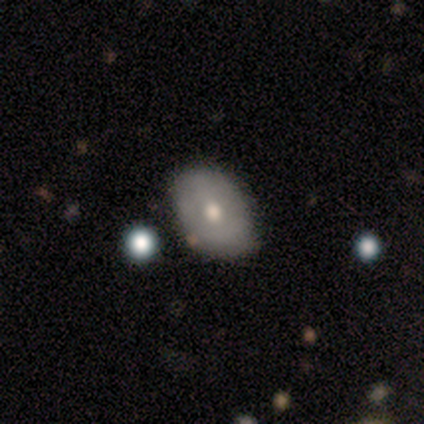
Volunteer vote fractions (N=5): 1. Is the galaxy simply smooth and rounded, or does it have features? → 80% featured or disk, 20% smooth, 0% star or artifact.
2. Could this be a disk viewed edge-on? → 100% no, 0% yes.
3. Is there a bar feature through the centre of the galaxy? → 50% weak (tied), 50% no (tied), 0% strong.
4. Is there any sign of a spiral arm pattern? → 75% no, 25% yes.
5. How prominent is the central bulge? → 100% moderate, 0% dominant, 0% large, 0% small, 0% none.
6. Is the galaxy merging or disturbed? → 100% none, 0% minor disturbance, 0% major disturbance, 0% merger.